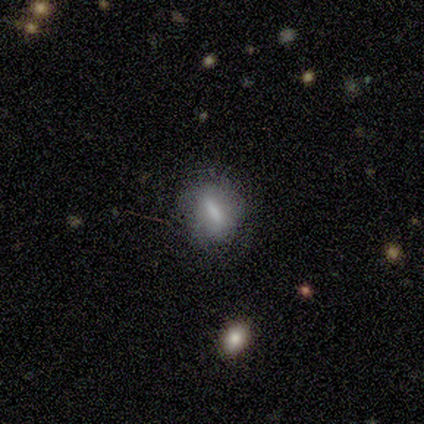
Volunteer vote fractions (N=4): Smooth or featured? 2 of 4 (50%) said smooth. How rounded? 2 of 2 (100%) said in between. Merging? 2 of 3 (67%) said minor disturbance.